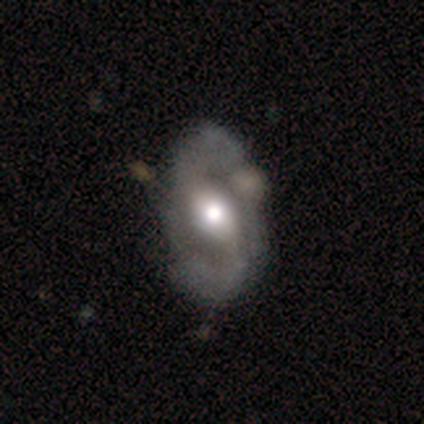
Q: Smooth or featured?
A: featured or disk (75%); runner-up: smooth (12%)
Q: Edge-on disk?
A: no (100%)
Q: Bar?
A: weak (67%); runner-up: no (33%)
Q: Spiral arms?
A: yes (83%); runner-up: no (17%)
Q: Spiral winding?
A: medium (60%); runner-up: tight (20%)
Q: Spiral arm count?
A: 2 (80%); runner-up: can't tell (20%)
Q: Bulge size?
A: moderate (67%); runner-up: large (33%)
Q: Merging?
A: none (100%)